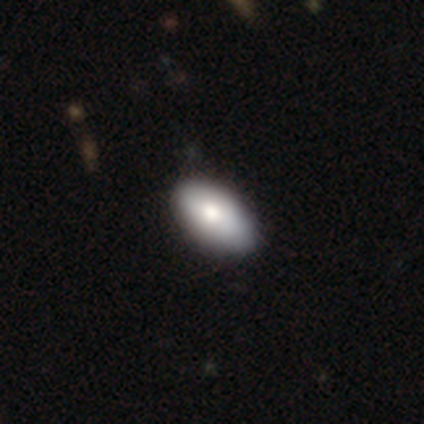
This appears to be a smooth galaxy with no disk features (76%) that is in between round and cigar-shaped (96%). Merging: none (41%).